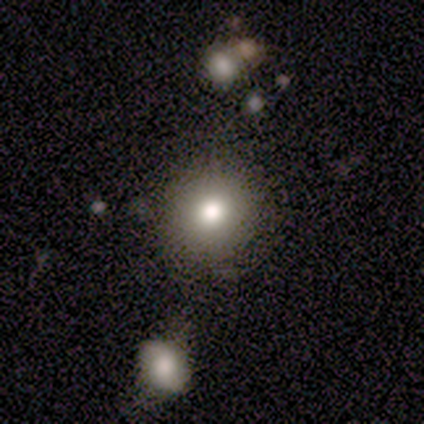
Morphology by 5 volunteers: Overall: smooth (100%). How rounded: round (100%). Merging: none (100%).